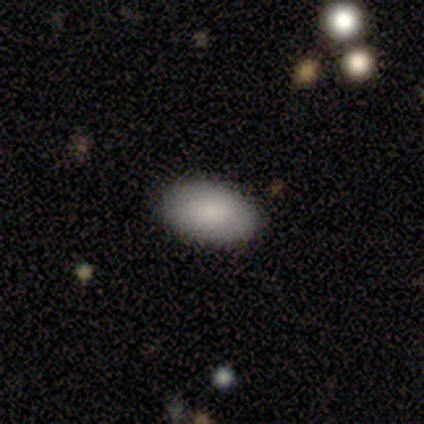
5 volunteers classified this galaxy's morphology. A smooth galaxy with no disk features (100%) that is in between round and cigar-shaped (100%).

Vote fractions:
- Smooth or featured? smooth: 100% / featured or disk: 0% / star or artifact: 0%
- How rounded? in between: 100% / round: 0% / cigar-shaped: 0%
- Merging? none: 100% / minor disturbance: 0% / major disturbance: 0% / merger: 0%